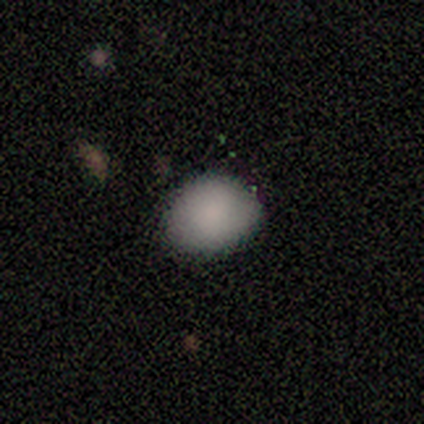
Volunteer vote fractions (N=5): A smooth galaxy with no disk features (80%) that is round (50%, tied with in between). Merging: none (80%).